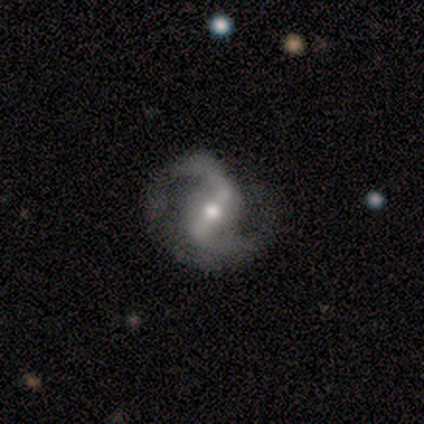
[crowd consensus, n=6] Overall: featured or disk (83%). Edge-on disk: no (100%). Bar: strong (40%, tied with weak). Spiral arms: yes (100%). Spiral arm count: 2 (100%). Spiral winding: loose (60%; medium 40%). Bulge size: moderate (60%; small 40%). Merging: none (100%).